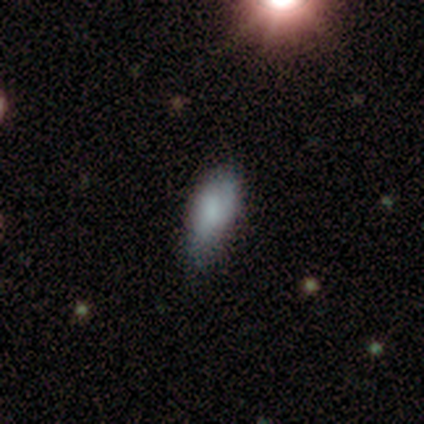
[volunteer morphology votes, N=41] smooth 71%, featured or disk 24%, star or artifact 5%. Down the decision tree: how rounded — in between (76%); merging — none (46%).